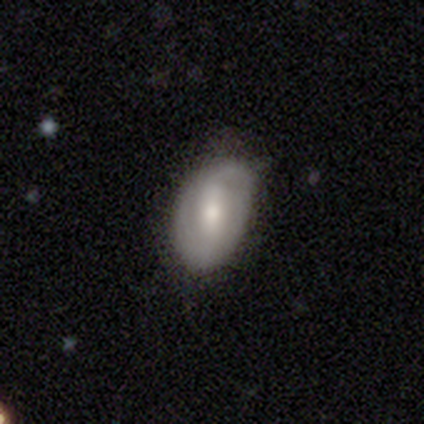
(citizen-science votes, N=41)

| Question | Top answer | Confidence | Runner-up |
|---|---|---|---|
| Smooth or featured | featured or disk | 51% | smooth (41%) |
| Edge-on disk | no | 100% | — |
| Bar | weak | 57% | strong (24%) |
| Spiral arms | yes | 62% | no (38%) |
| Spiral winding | tight | 46% | loose (31%) |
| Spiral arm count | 2 | 92% | 1 (8%) |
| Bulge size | moderate | 76% | small (14%) |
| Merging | none | 66% | minor disturbance (29%) |